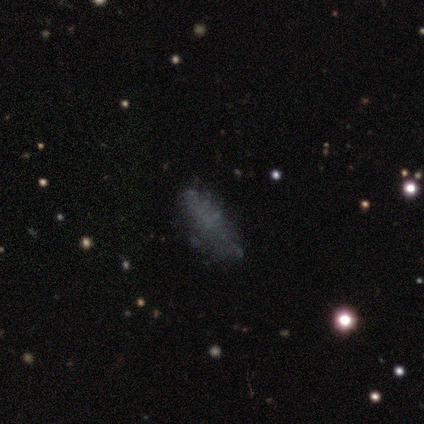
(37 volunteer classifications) Smooth or featured?
  - smooth: 41% * (tied)
  - featured or disk: 41% * (tied)
  - star or artifact: 19%
How rounded?
  - in between: 80% *
  - cigar-shaped: 13%
  - round: 7%
Merging?
  - none: 77% *
  - minor disturbance: 17%
  - major disturbance: 7%
  - merger: 0%